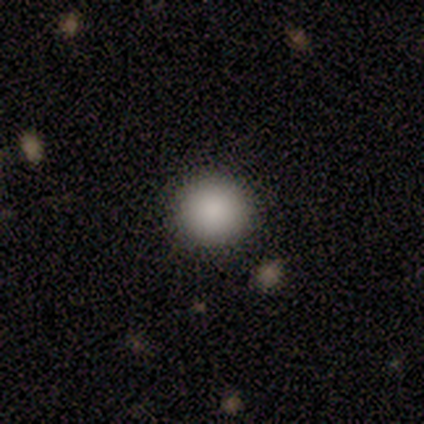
smooth-or-featured: smooth: 100% | featured or disk: 0% | star or artifact: 0%
  how-rounded: round: 100% | in between: 0% | cigar-shaped: 0%
  merging: none: 100% | minor disturbance: 0% | major disturbance: 0% | merger: 0%